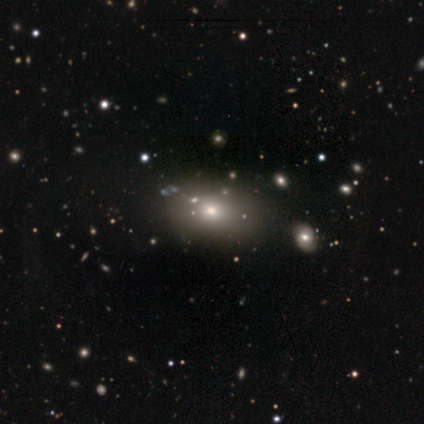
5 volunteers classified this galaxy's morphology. type=smooth (60%); roundness=in between (67%); merging=none (100%).